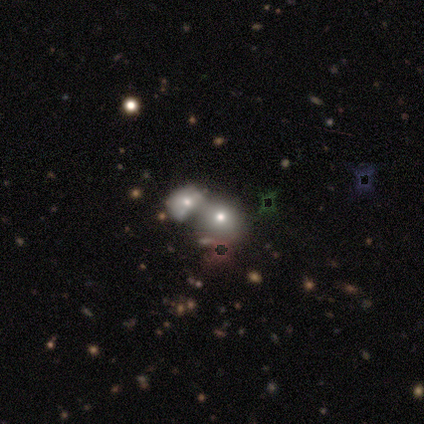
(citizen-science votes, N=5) Volunteers were most divided on "smooth or featured": smooth: 60%, star or artifact: 40%, featured or disk: 0%. More confident: how rounded — round (100%); merging — none (67%).